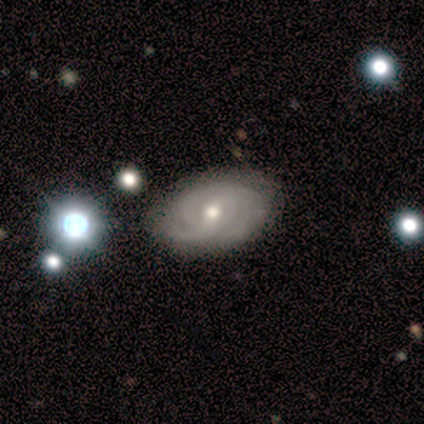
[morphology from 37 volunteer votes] Overall: featured or disk (81%). Edge-on disk: no (93%). Bar: no (57%; weak 32%). Spiral arms: yes (93%). Spiral arm count: 3 (35%; 2 23%). Spiral winding: tight (62%). Bulge size: moderate (61%; small 29%). Merging: none (76%).